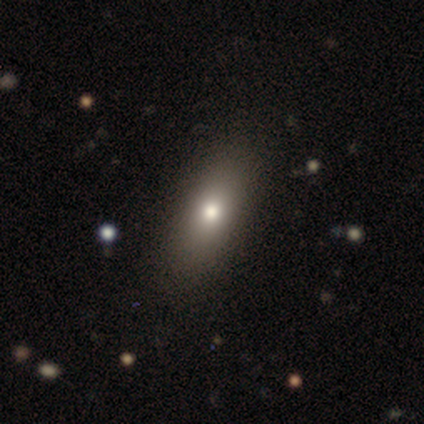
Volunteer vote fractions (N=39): Smooth or featured? 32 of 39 (82%) said smooth. How rounded? 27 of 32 (84%) said in between. Merging? 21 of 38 (55%) said none.